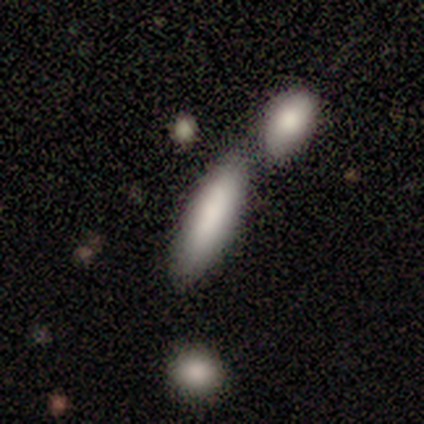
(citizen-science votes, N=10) A smooth galaxy with no disk features (90%) that is cigar-shaped (56%).

Vote fractions:
- Smooth or featured? smooth: 90% / featured or disk: 10% / star or artifact: 0%
- How rounded? cigar-shaped: 56% / in between: 44% / round: 0%
- Merging? merger: 50% / none: 30% / minor disturbance: 20% / major disturbance: 0%